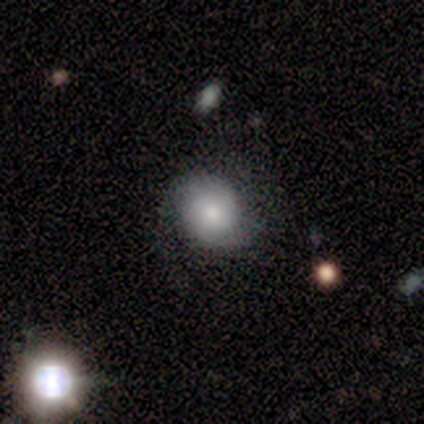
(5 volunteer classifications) Q: Smooth or featured?
A: featured or disk (60%); runner-up: smooth (40%)
Q: Edge-on disk?
A: no (100%)
Q: Bar?
A: no (67%); runner-up: weak (33%)
Q: Spiral arms?
A: yes (67%); runner-up: no (33%)
Q: Spiral winding?
A: tight (50%); tied with: medium (50%)
Q: Spiral arm count?
A: 2 (50%); tied with: can't tell (50%)
Q: Bulge size?
A: large (33%); tied with: moderate (33%); small (33%)
Q: Merging?
A: none (40%); tied with: minor disturbance (40%)